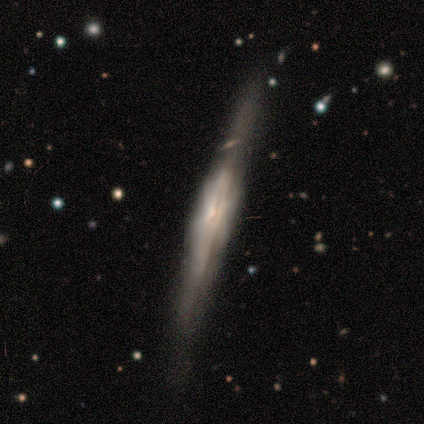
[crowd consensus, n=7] Morphology: type=featured or disk (100%); edge-on=yes (100%); edge-on bulge=boxy (57%); merging=none (71%).